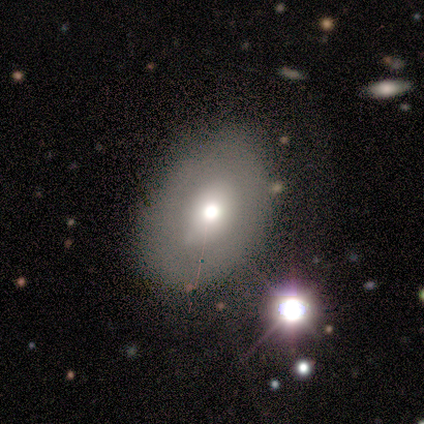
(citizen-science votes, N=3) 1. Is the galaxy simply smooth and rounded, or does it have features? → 67% featured or disk, 33% smooth, 0% star or artifact.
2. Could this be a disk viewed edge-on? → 100% no, 0% yes.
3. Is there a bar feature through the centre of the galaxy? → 50% weak (tied), 50% no (tied), 0% strong.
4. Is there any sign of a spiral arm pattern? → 100% no, 0% yes.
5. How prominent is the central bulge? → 50% dominant (tied), 50% moderate (tied), 0% large, 0% small, 0% none.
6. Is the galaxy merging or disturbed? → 100% none, 0% minor disturbance, 0% major disturbance, 0% merger.